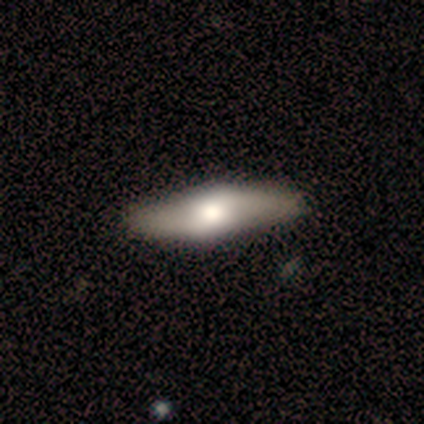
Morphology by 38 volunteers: This appears to be a featured or disk galaxy (66%) viewed edge-on (56%) with a rounded central bulge (86%). Merging: none (65%).